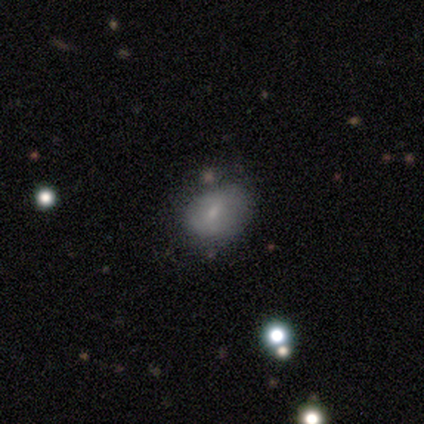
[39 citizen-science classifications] Smooth or featured? smooth (69%)
How rounded? in between (63%)
Merging? none (66%)